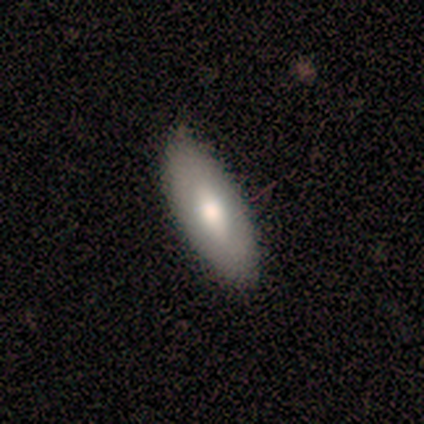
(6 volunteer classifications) A smooth galaxy with no disk features (67%) that is in between round and cigar-shaped (100%). Merging: none (100%).